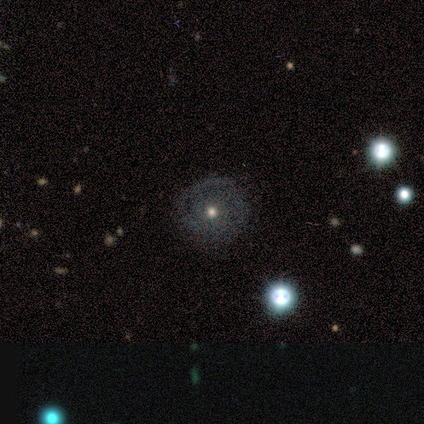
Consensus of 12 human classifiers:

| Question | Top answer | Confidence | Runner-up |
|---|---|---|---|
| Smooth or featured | smooth | 42% | tied: featured or disk (42%) |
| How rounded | round | 100% | — |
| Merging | none | 60% | minor disturbance (30%) |